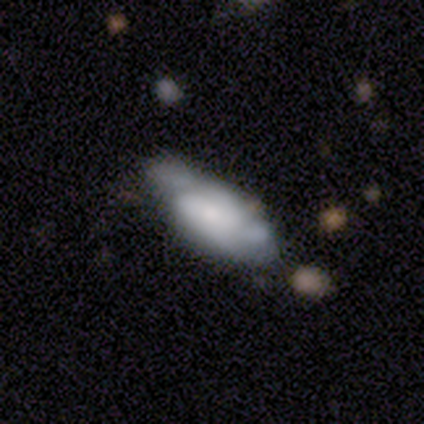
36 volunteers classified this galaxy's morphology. Smooth or featured? smooth (47%)
How rounded? in between (53%)
Merging? none (58%)